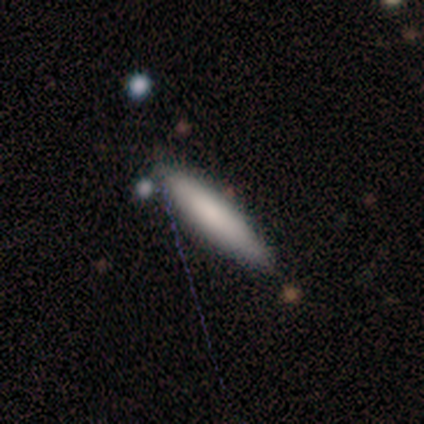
A smooth galaxy with no disk features (75%) that is cigar-shaped (100%).

Vote fractions:
- Smooth or featured? smooth: 75% / star or artifact: 25% / featured or disk: 0%
- How rounded? cigar-shaped: 100% / round: 0% / in between: 0%
- Merging? minor disturbance: 67% / none: 33% / major disturbance: 0% / merger: 0%